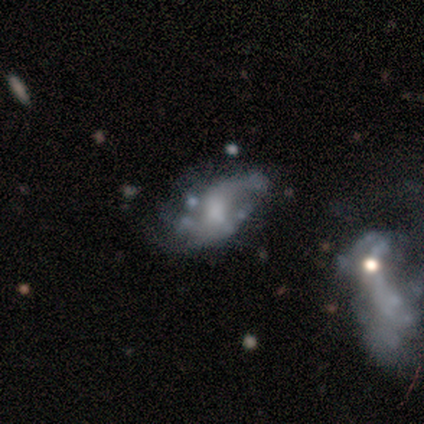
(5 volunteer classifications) Overall: featured or disk (60%; smooth 40%). Edge-on disk: no (100%). Bar: no (67%; weak 33%). Spiral arms: no (67%; yes 33%). Bulge size: moderate (67%; none 33%). Merging: minor disturbance (40%; none 20%).